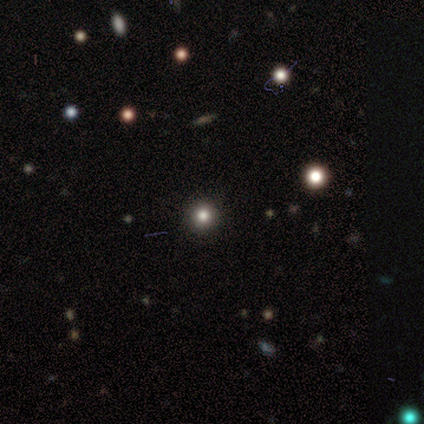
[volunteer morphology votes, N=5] Smooth or featured? smooth (60%)
How rounded? round (100%)
Merging? none (100%)